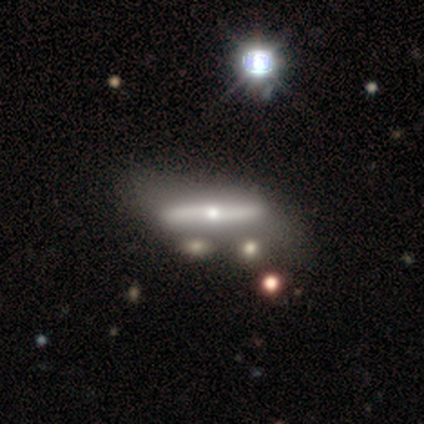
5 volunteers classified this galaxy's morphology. featured or disk 60%, smooth 40%, star or artifact 0%. Down the decision tree: edge-on disk — yes (100%); edge-on bulge — rounded (67%); merging — none (80%).